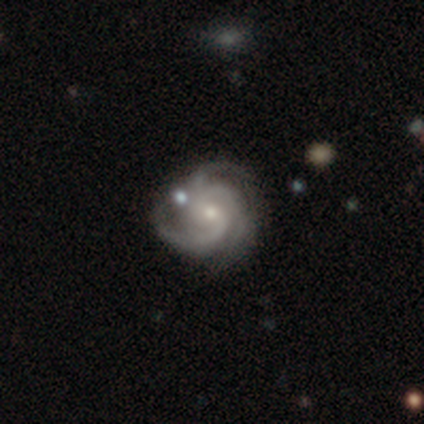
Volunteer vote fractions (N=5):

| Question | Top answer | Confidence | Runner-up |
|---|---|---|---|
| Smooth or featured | featured or disk | 80% | star or artifact (20%) |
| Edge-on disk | no | 100% | — |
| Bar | no | 75% | weak (25%) |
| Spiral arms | yes | 100% | — |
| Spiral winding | tight | 50% | tied: medium (50%) |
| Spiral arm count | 3 | 75% | more than 4 (25%) |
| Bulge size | moderate | 50% | tied: small (50%) |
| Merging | none | 75% | minor disturbance (25%) |